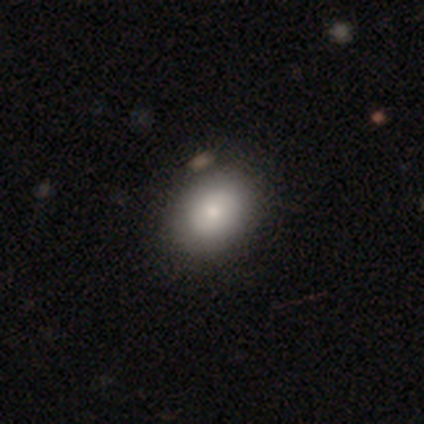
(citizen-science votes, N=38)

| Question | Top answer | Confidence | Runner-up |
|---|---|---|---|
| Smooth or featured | smooth | 76% | featured or disk (18%) |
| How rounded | in between | 79% | round (21%) |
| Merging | none | 72% | minor disturbance (6%) |